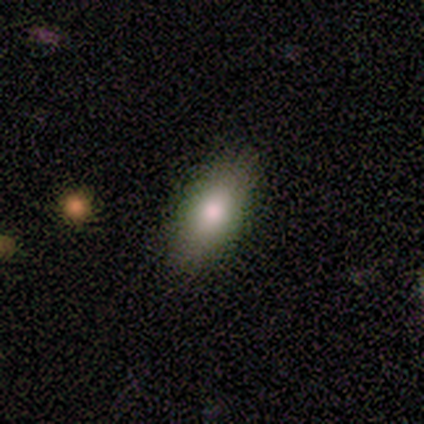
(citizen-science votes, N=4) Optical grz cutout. It shows a smooth galaxy with no disk features (75%) that is in between round and cigar-shaped (100%). Merging: none (100%).